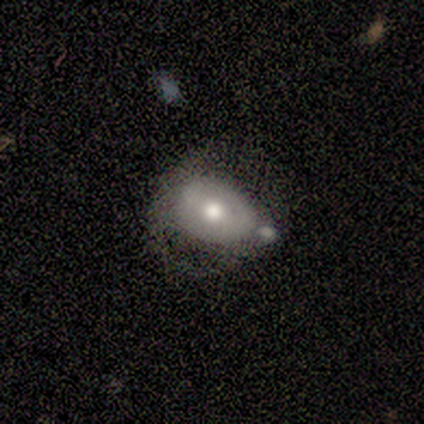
smooth-or-featured: smooth: 50% (tied) | featured or disk: 50% (tied) | star or artifact: 0%
  how-rounded: round: 50% (tied) | in between: 50% (tied) | cigar-shaped: 0%
  merging: none: 50% | minor disturbance: 25% | merger: 25% | major disturbance: 0%